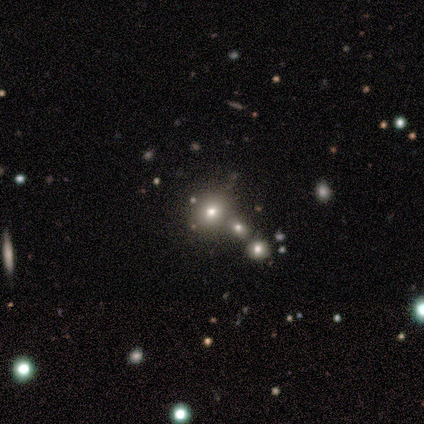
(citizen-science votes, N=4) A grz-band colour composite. It shows a smooth galaxy with no disk features (50%) that is round (50%, tied with in between). Merging: none (67%).